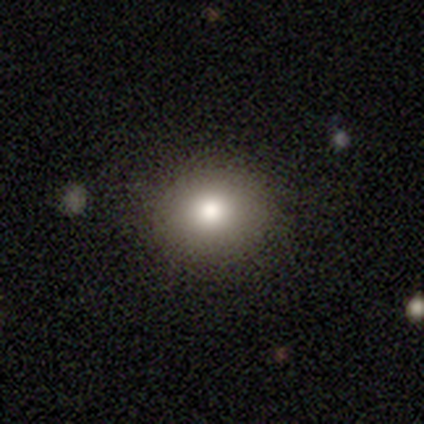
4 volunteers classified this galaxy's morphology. smooth-or-featured: smooth: 75% | featured or disk: 25% | star or artifact: 0%
  how-rounded: round: 100% | in between: 0% | cigar-shaped: 0%
  merging: none: 100% | minor disturbance: 0% | major disturbance: 0% | merger: 0%